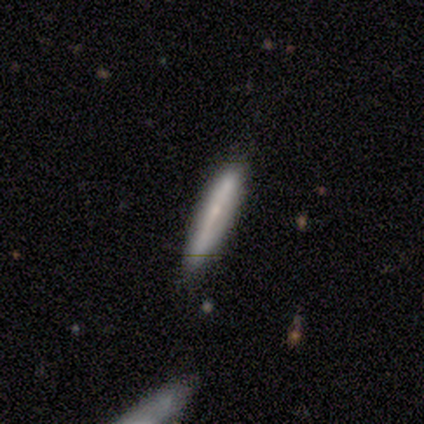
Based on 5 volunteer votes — Smooth or featured? 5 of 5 (100%) said smooth. How rounded? 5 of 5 (100%) said cigar-shaped. Merging? 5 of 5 (100%) said none.